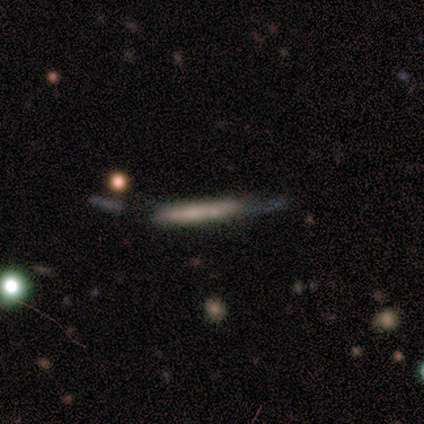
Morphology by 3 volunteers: This appears to be a featured or disk galaxy (67%) viewed edge-on (100%) with no central bulge (100%). Merging: minor disturbance (50%, tied with major disturbance).